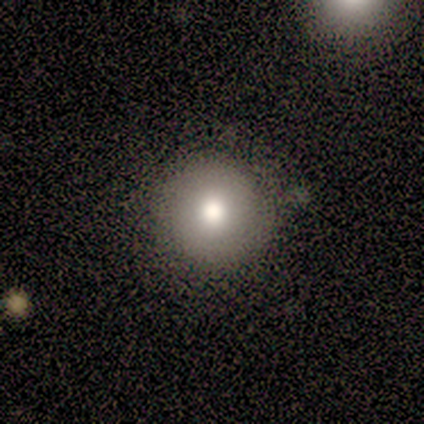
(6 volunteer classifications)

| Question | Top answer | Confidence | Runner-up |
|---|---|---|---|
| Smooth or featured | smooth | 83% | star or artifact (17%) |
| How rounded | round | 80% | in between (20%) |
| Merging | none | 60% | minor disturbance (20%) |